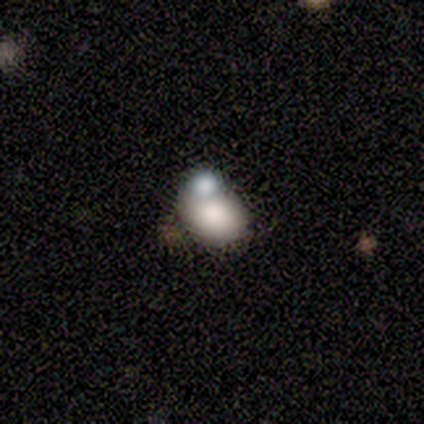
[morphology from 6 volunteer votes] This is clearly a smooth galaxy (83%). How rounded: likely in between (60%). Merging: marginally minor disturbance (40%, tied with merger).